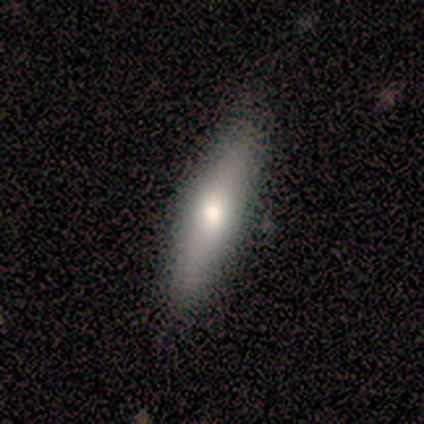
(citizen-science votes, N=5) smooth 100%, featured or disk 0%, star or artifact 0%. Down the decision tree: how rounded — cigar-shaped (100%); merging — none (100%).